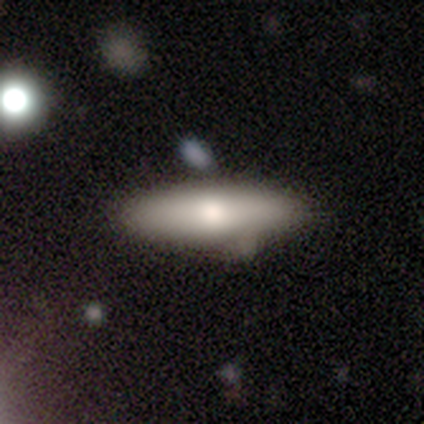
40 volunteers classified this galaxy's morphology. Volunteers were most divided on "merging": none: 45%, minor disturbance: 21%, merger: 5%, major disturbance: 3%. More confident: smooth or featured — smooth (75%); how rounded — cigar-shaped (70%).